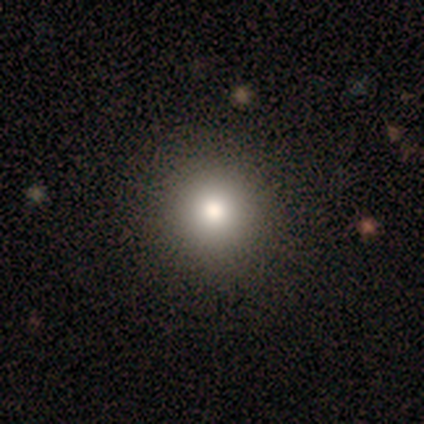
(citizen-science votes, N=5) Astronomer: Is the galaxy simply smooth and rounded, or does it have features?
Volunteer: smooth — 60%.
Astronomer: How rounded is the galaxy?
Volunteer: round — 100%.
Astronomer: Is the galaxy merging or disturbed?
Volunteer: none — 100%.